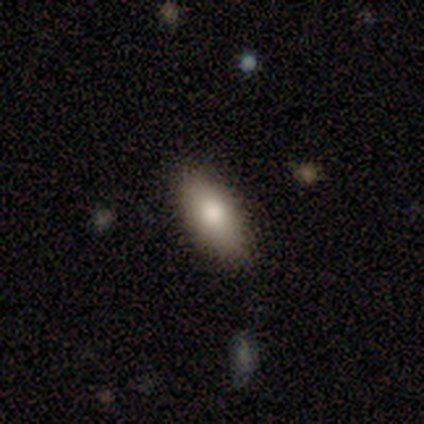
A smooth galaxy with no disk features (80%) that is in between round and cigar-shaped (100%).

Vote fractions:
- Smooth or featured? smooth: 80% / featured or disk: 20% / star or artifact: 0%
- How rounded? in between: 100% / round: 0% / cigar-shaped: 0%
- Merging? none: 100% / minor disturbance: 0% / major disturbance: 0% / merger: 0%